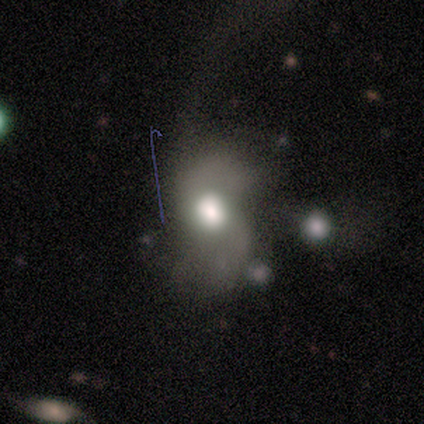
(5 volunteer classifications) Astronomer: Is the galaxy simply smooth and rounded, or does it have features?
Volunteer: smooth — 40%, tied with featured or disk at 40%.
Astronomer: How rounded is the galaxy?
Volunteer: round — 50%, tied with in between at 50%.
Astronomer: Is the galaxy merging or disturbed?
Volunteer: major disturbance — 100%.